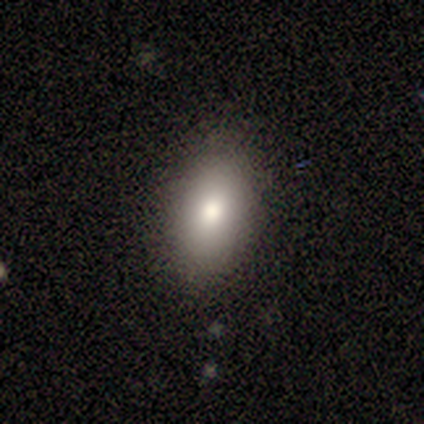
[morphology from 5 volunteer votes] Overall: smooth (100%). How rounded: in between (100%). Merging: none (100%).